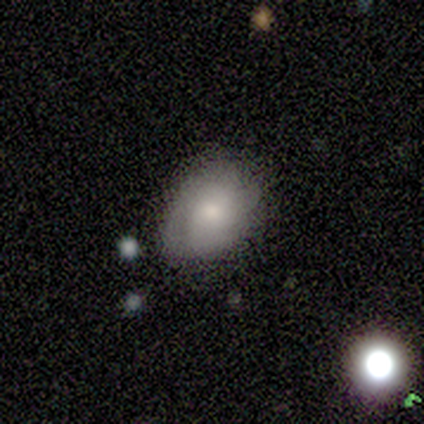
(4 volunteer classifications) This appears to be a smooth galaxy with no disk features (50%) that is in between round and cigar-shaped (100%). Merging: minor disturbance (67%).